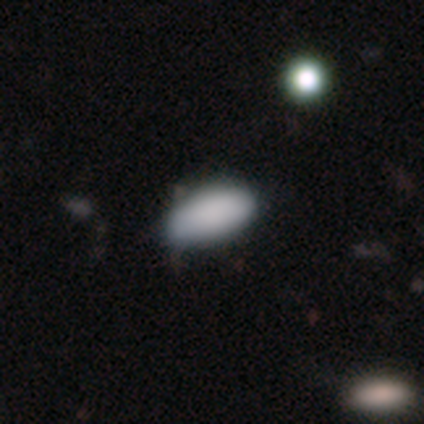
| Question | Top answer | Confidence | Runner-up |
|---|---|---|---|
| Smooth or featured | smooth | 80% | featured or disk (20%) |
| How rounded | in between | 100% | — |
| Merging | minor disturbance | 60% | none (40%) |